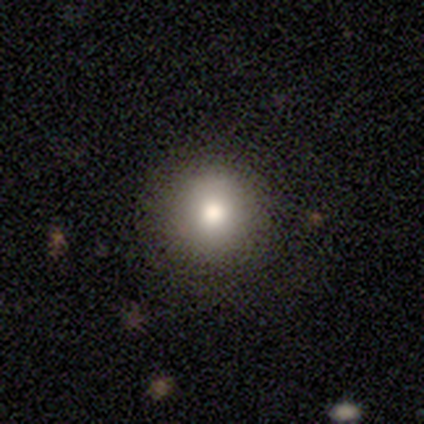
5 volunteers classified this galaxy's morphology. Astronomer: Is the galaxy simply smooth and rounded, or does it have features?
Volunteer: smooth — 60%.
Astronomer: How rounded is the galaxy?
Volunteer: round — 100%.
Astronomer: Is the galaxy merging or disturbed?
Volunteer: none — 75%.